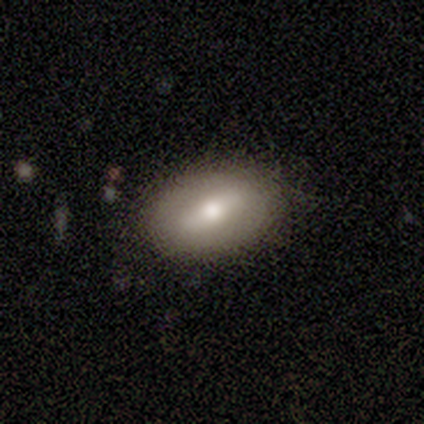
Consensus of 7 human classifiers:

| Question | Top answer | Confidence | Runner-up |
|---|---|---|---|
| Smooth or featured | smooth | 43% | tied: featured or disk (43%) |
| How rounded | in between | 100% | — |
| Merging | none | 83% | minor disturbance (17%) |